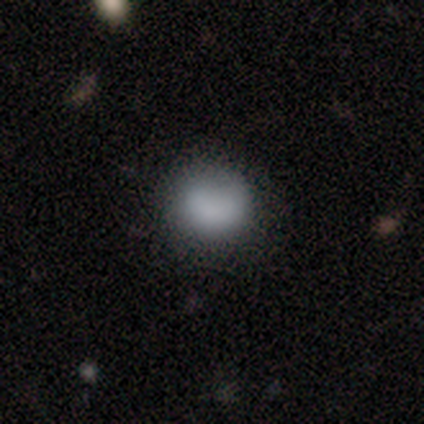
Q: Smooth or featured?
A: smooth (80%); runner-up: featured or disk (20%)
Q: How rounded?
A: round (50%); tied with: in between (50%)
Q: Merging?
A: none (80%); runner-up: major disturbance (20%)